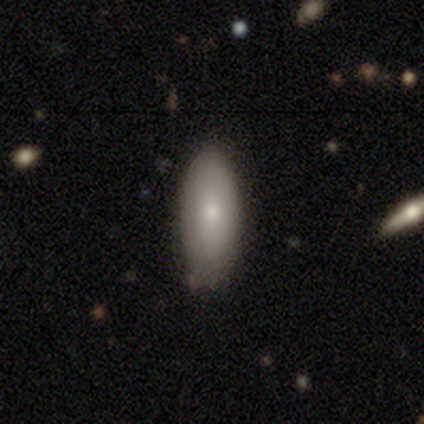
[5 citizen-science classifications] Morphology: type=smooth (80%); roundness=in between (75%); merging=none (75%).